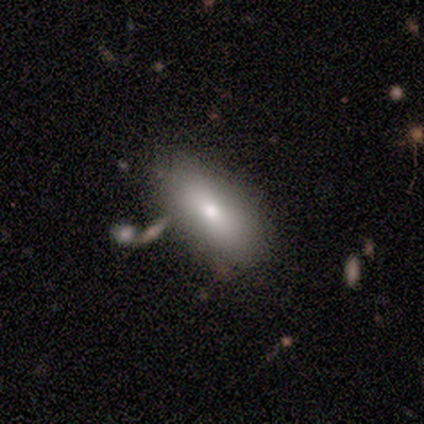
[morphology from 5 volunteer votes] A smooth galaxy with no disk features (60%) that is in between round and cigar-shaped (100%).

Vote fractions:
- Smooth or featured? smooth: 60% / featured or disk: 40% / star or artifact: 0%
- How rounded? in between: 100% / round: 0% / cigar-shaped: 0%
- Merging? minor disturbance: 80% / none: 20% / major disturbance: 0% / merger: 0%